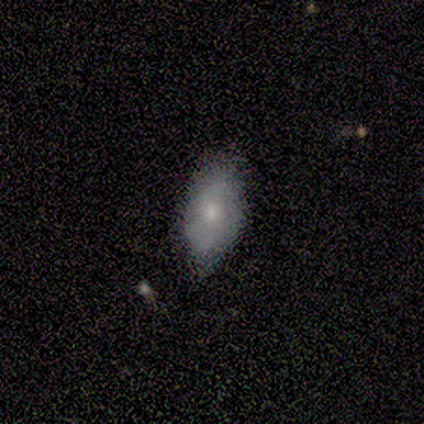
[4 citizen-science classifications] Smooth or featured?
  - smooth: 50% *
  - featured or disk: 25%
  - star or artifact: 25%
How rounded?
  - in between: 100% *
  - round: 0%
  - cigar-shaped: 0%
Merging?
  - none: 100% *
  - minor disturbance: 0%
  - major disturbance: 0%
  - merger: 0%